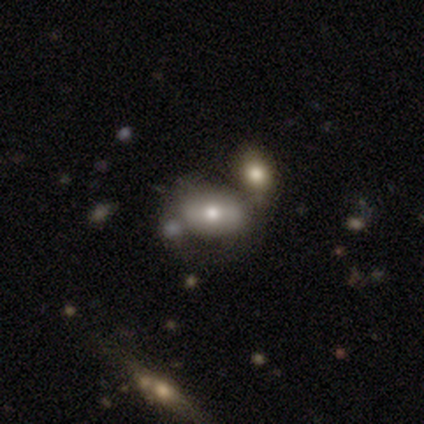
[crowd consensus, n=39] Q: Smooth or featured?
A: smooth (54%); runner-up: featured or disk (31%)
Q: How rounded?
A: in between (90%); runner-up: cigar-shaped (10%)
Q: Merging?
A: none (45%); runner-up: merger (36%)